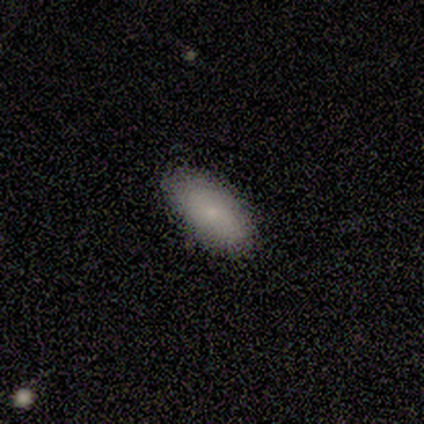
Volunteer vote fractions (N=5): This is clearly a smooth galaxy (100%). How rounded: clearly in between (80%). Merging: likely none (60%).